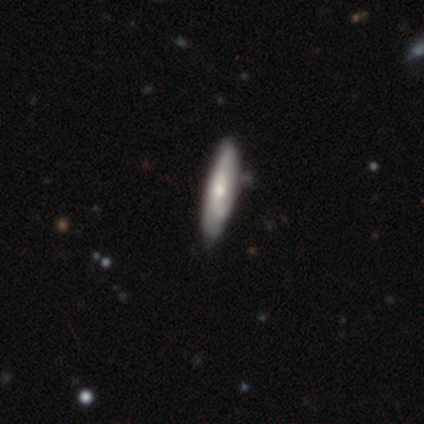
This is marginally a smooth galaxy (40%, tied with featured or disk). How rounded: clearly cigar-shaped (100%). Merging: possibly none (50%, tied with minor disturbance).